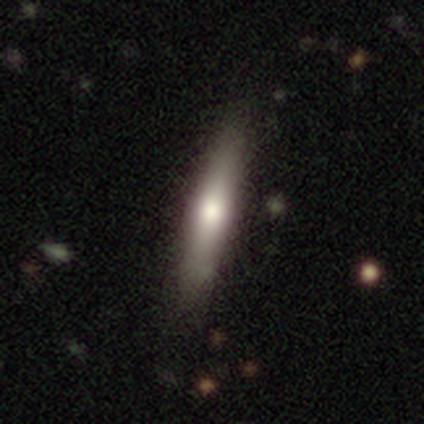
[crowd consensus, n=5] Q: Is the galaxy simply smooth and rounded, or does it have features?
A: featured or disk — 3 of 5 (60%).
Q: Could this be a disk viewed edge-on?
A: yes — 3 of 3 (100%).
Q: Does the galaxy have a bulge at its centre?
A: rounded — 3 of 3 (100%).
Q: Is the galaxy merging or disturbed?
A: none — 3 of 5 (60%).